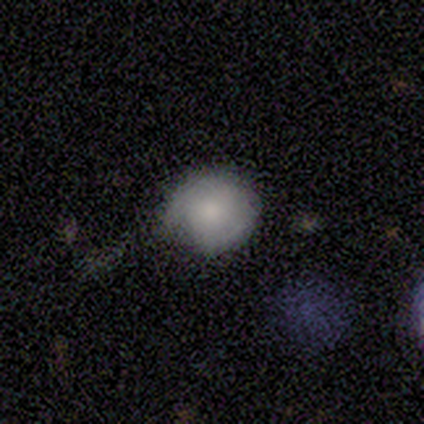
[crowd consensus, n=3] Q: Smooth or featured?
A: smooth (67%); runner-up: featured or disk (33%)
Q: How rounded?
A: round (50%); tied with: in between (50%)
Q: Merging?
A: none (67%); runner-up: minor disturbance (33%)